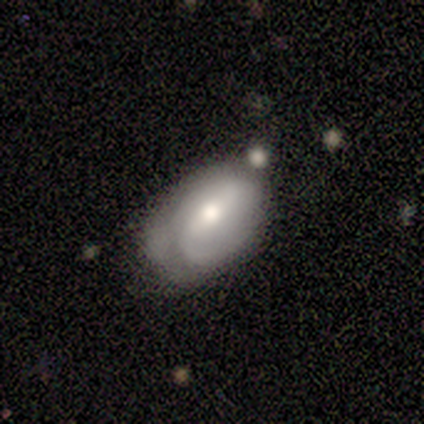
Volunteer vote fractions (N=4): Smooth or featured? featured or disk (75%)
Edge-on disk? no (100%)
Bar? strong (67%)
Spiral arms? yes (67%)
Spiral winding? medium (50%, tied with loose)
Spiral arm count? 2 (50%, tied with can't tell)
Bulge size? moderate (67%)
Merging? none (50%, tied with minor disturbance)